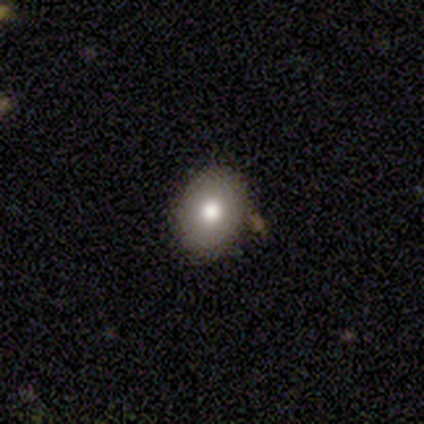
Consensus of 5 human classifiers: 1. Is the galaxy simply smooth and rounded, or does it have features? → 60% smooth, 40% featured or disk, 0% star or artifact.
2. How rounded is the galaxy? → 67% in between, 33% round, 0% cigar-shaped.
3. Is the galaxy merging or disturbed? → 80% none, 20% minor disturbance, 0% major disturbance, 0% merger.